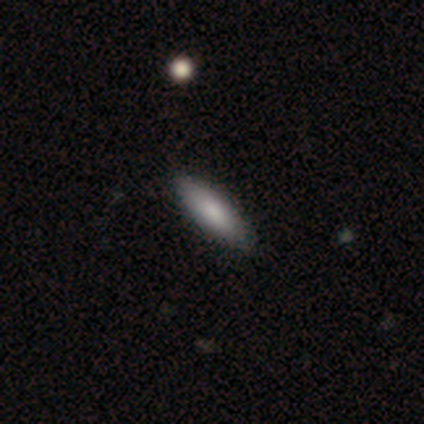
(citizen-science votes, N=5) Morphology: type=smooth (100%); roundness=in between (60%); merging=none (100%).